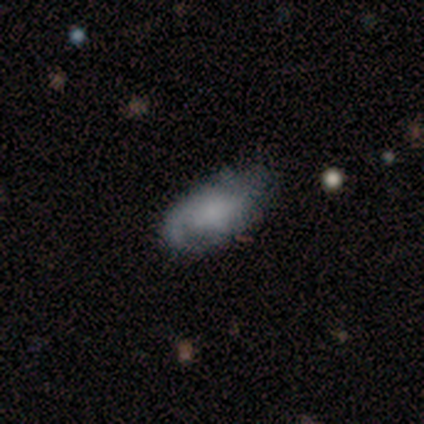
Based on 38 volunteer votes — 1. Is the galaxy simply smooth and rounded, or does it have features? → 53% smooth, 37% featured or disk, 11% star or artifact.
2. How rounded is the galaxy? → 90% in between, 5% round, 5% cigar-shaped.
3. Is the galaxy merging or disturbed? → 38% minor disturbance, 32% none, 26% major disturbance, 3% merger.